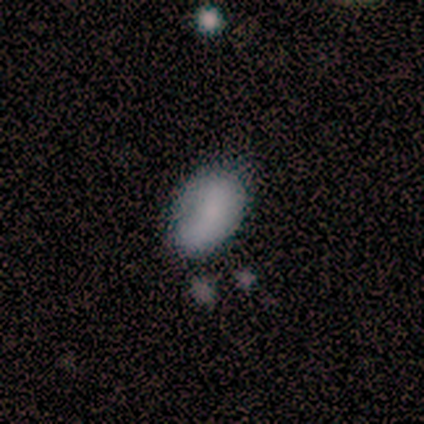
Overall: smooth (73%). How rounded: in between (85%). Merging: none (66%; minor disturbance 28%).